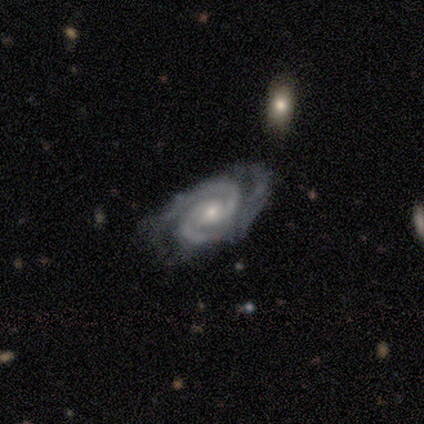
A featured or disk galaxy (100%) with no bar (60%), 2 (100%) tight (80%) spiral arms (100%) and a moderate central bulge (60%).

Vote fractions:
- Smooth or featured? featured or disk: 100% / smooth: 0% / star or artifact: 0%
- Edge-on disk? no: 100% / yes: 0%
- Bar? no: 60% / weak: 40% / strong: 0%
- Spiral arms? yes: 100% / no: 0%
- Spiral winding? tight: 80% / medium: 20% / loose: 0%
- Spiral arm count? 2: 100% / 1: 0% / 3: 0% / 4: 0% / more than 4: 0% / can't tell: 0%
- Bulge size? moderate: 60% / small: 40% / dominant: 0% / large: 0% / none: 0%
- Merging? minor disturbance: 60% / none: 20% / major disturbance: 20% / merger: 0%